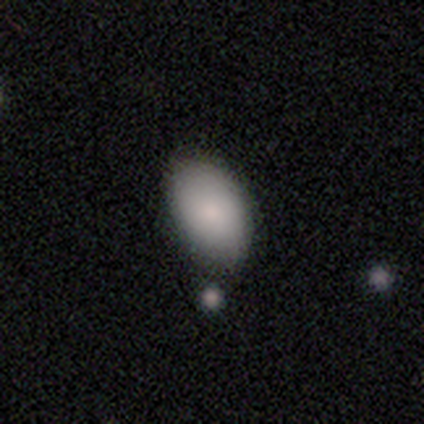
Q: Smooth or featured?
A: smooth (100%)
Q: How rounded?
A: in between (100%)
Q: Merging?
A: none (100%)